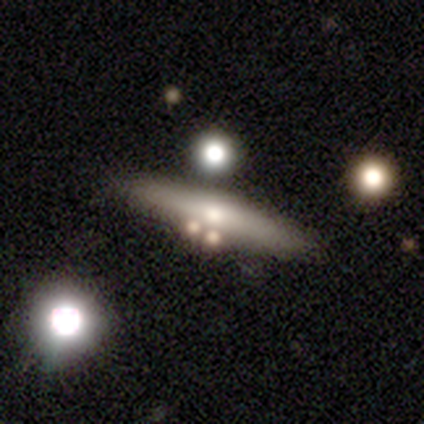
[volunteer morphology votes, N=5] Smooth or featured? 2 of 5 (40%, tied with featured or disk) said smooth. How rounded? 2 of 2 (100%) said cigar-shaped. Merging? 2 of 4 (50%) said none.